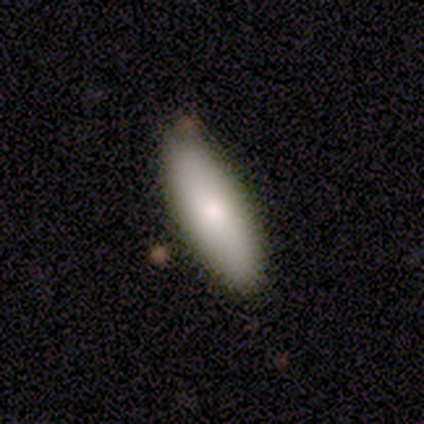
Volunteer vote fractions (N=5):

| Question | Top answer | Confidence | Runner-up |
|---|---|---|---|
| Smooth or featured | smooth | 80% | featured or disk (20%) |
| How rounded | in between | 50% | tied: cigar-shaped (50%) |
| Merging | none | 100% | — |